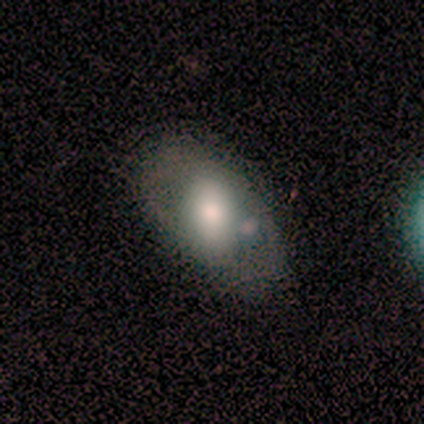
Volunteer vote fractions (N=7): Smooth or featured: smooth — 57% (featured or disk — 43%)
How rounded: in between — 100%
Merging: none — 57% (minor disturbance — 29%)